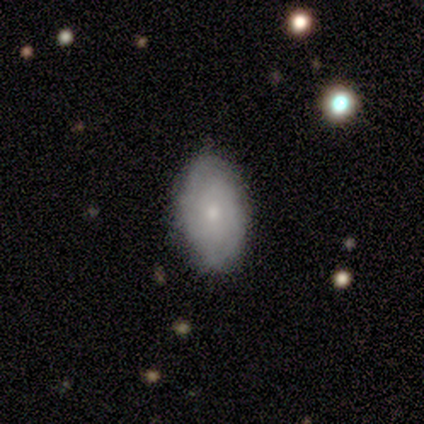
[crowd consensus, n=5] smooth_or_featured: smooth (p=0.60) [alt: featured or disk p=0.40]
how_rounded: in between (p=1.00)
merging: none (p=0.80) [alt: minor disturbance p=0.20]